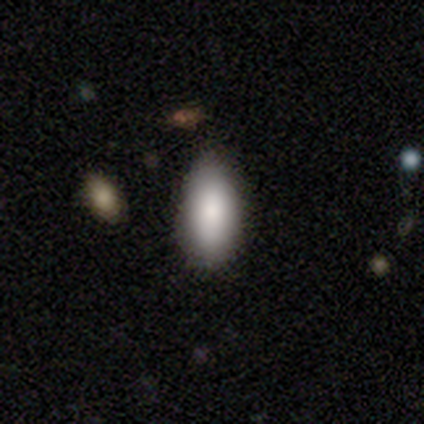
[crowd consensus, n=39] Volunteers were most divided on "merging": none: 57%, minor disturbance: 11%, major disturbance: 5%, merger: 0%. More confident: how rounded — in between (91%); smooth or featured — smooth (90%).